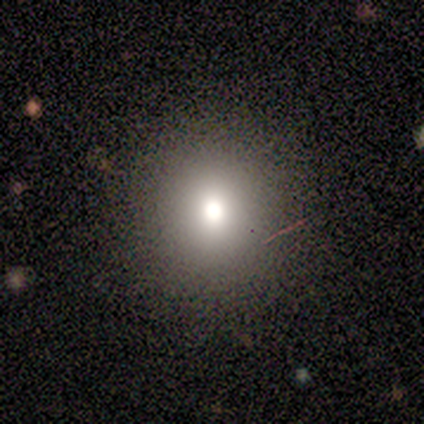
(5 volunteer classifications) Overall: smooth (60%; star or artifact 40%). How rounded: round (100%). Merging: none (100%).